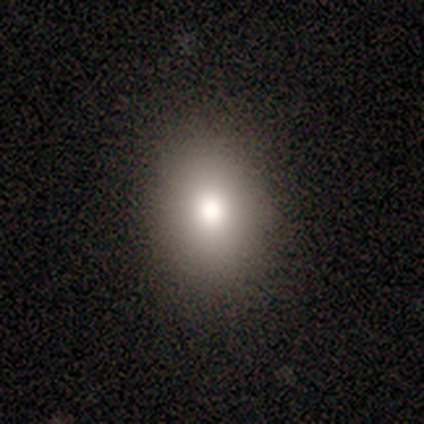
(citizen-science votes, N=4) Smooth or featured? 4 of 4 (100%) said smooth. How rounded? 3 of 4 (75%) said round. Merging? 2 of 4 (50%) said none.